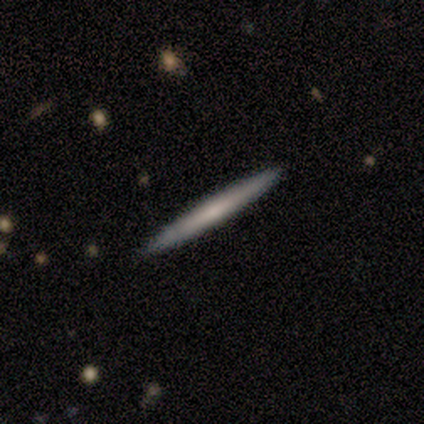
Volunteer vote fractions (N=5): A featured or disk galaxy (60%) viewed edge-on (100%) with no central bulge (67%). Merging: none (80%).